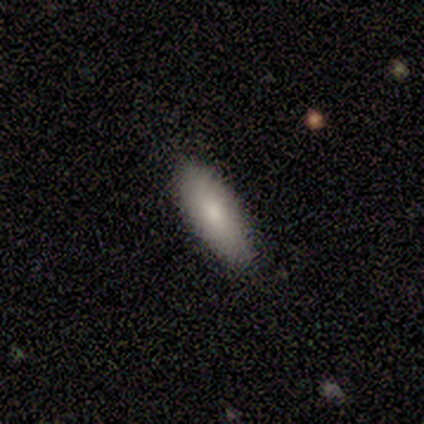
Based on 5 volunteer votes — smooth-or-featured: smooth: 80% | featured or disk: 20% | star or artifact: 0%
  how-rounded: in between: 50% (tied) | cigar-shaped: 50% (tied) | round: 0%
  merging: none: 100% | minor disturbance: 0% | major disturbance: 0% | merger: 0%